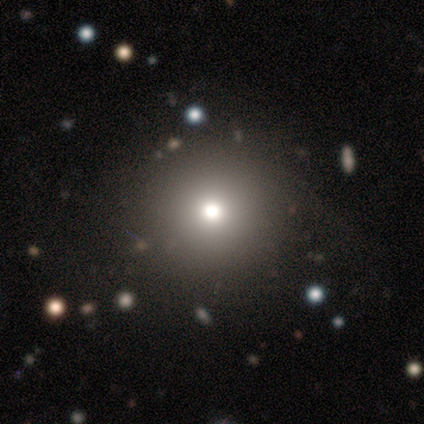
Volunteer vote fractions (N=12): smooth_or_featured: smooth (p=0.58) [alt: star or artifact p=0.25]
how_rounded: round (p=1.00)
merging: none (p=1.00)